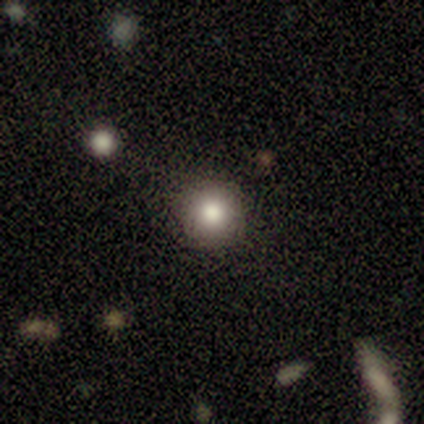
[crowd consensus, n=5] smooth 40% (tied), star or artifact 40% (tied), featured or disk 20%. Down the decision tree: how rounded — round (100%); merging — none (100%).